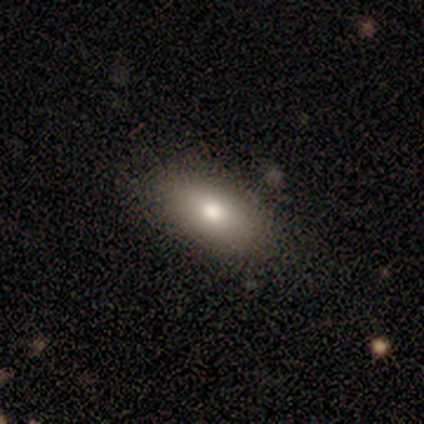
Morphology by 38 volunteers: smooth_or_featured: smooth (p=0.89) [alt: featured or disk p=0.08]
how_rounded: in between (p=1.00)
merging: none (p=0.86) [alt: minor disturbance p=0.11]